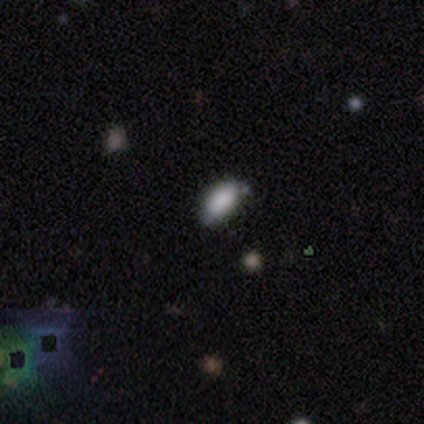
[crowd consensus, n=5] Q: Smooth or featured?
A: smooth (80%); runner-up: star or artifact (20%)
Q: How rounded?
A: in between (75%); runner-up: round (25%)
Q: Merging?
A: none (50%); runner-up: minor disturbance (25%)